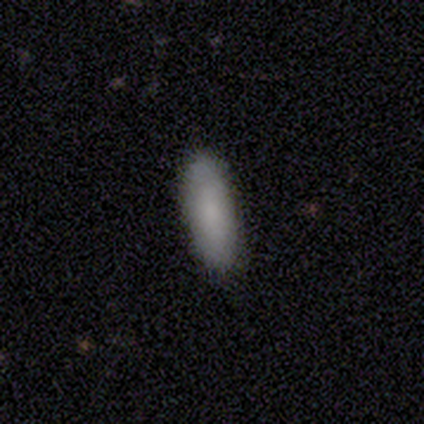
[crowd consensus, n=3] smooth 100%, featured or disk 0%, star or artifact 0%. Down the decision tree: how rounded — in between (100%); merging — none (100%).